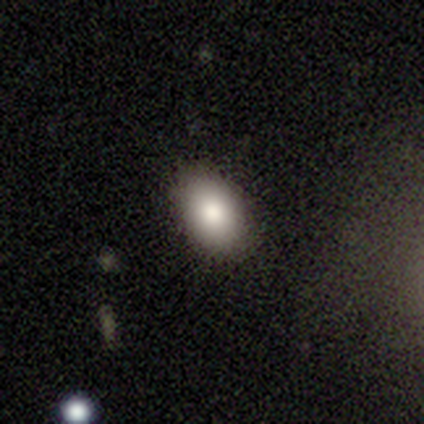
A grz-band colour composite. It shows a smooth galaxy with no disk features (90%) that is in between round and cigar-shaped (89%). Merging: none (89%).